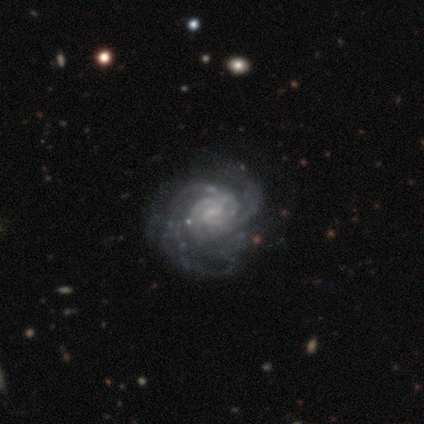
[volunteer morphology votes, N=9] Volunteers were most divided on "spiral arm count": can't tell: 44%, 2: 33%, 4: 11%, more than 4: 11%, 1: 0%, 3: 0%. More confident: smooth or featured — featured or disk (100%); edge-on disk — no (100%); spiral arms — yes (100%); bulge size — small (78%); merging — none (78%); bar — weak (67%); spiral winding — tight (67%).